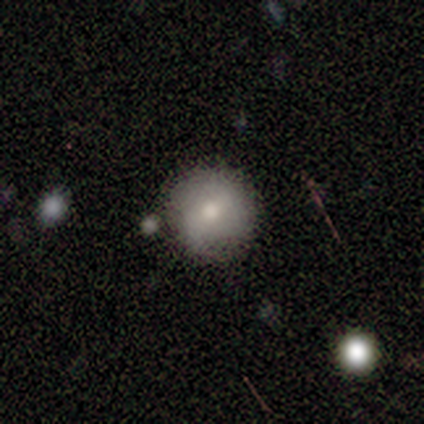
Smooth or featured? 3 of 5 (60%) said smooth. How rounded? 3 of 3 (100%) said round. Merging? 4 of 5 (80%) said none.